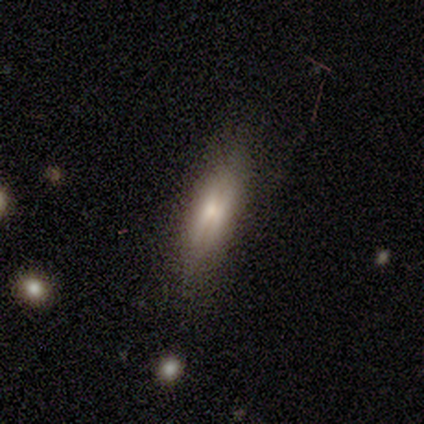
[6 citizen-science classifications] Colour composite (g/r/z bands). It shows a smooth galaxy with no disk features (67%) that is in between round and cigar-shaped (75%). Merging: none (50%, tied with minor disturbance).